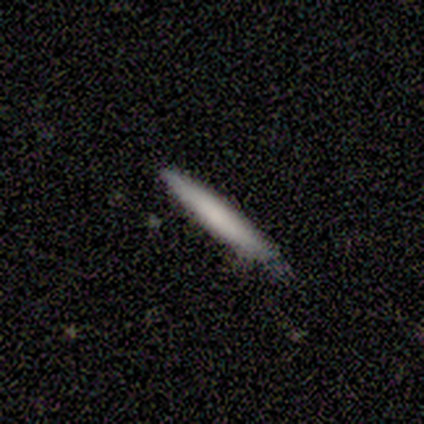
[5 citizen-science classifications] Smooth or featured?
  - smooth: 60% *
  - featured or disk: 40%
  - star or artifact: 0%
How rounded?
  - cigar-shaped: 67% *
  - in between: 33%
  - round: 0%
Merging?
  - none: 80% *
  - minor disturbance: 20%
  - major disturbance: 0%
  - merger: 0%